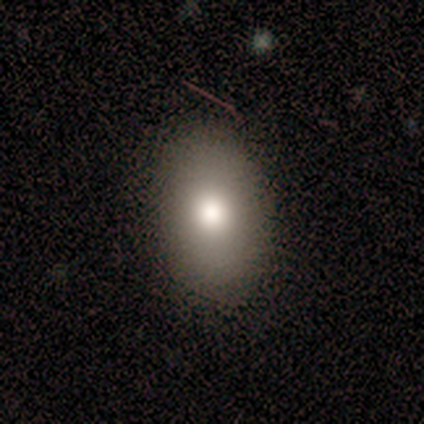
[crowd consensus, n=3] A smooth galaxy with no disk features (100%) that is in between round and cigar-shaped (100%).

Vote fractions:
- Smooth or featured? smooth: 100% / featured or disk: 0% / star or artifact: 0%
- How rounded? in between: 100% / round: 0% / cigar-shaped: 0%
- Merging? none: 67% / major disturbance: 33% / minor disturbance: 0% / merger: 0%